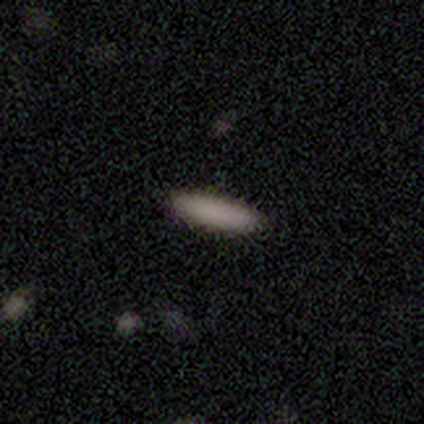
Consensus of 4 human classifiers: Q: Smooth or featured?
A: smooth (100%)
Q: How rounded?
A: cigar-shaped (75%); runner-up: in between (25%)
Q: Merging?
A: none (100%)